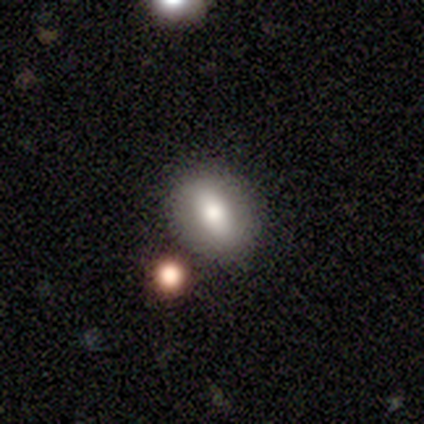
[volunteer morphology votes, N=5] Q: Smooth or featured?
A: smooth (80%); runner-up: star or artifact (20%)
Q: How rounded?
A: in between (100%)
Q: Merging?
A: none (50%); tied with: merger (50%)